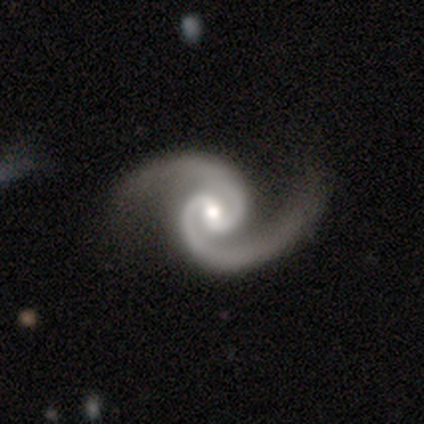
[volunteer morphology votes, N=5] Smooth or featured: featured or disk — 100%
Edge-on disk: no — 100%
Bar: no — 60% (strong — 20%)
Spiral arms: yes — 100%
Spiral winding: tight — 60% (medium — 20%)
Spiral arm count: 2 — 80% (3 — 20%)
Bulge size: moderate — 40% (tied with none — 40%)
Merging: none — 80% (major disturbance — 20%)